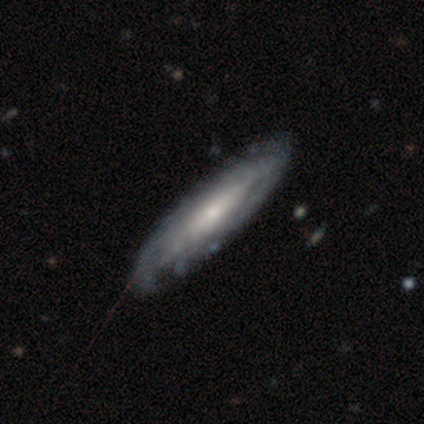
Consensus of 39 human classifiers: smooth_or_featured: featured or disk (p=0.59) [alt: smooth p=0.41]
disk_edge_on: no (p=0.74) [alt: yes p=0.26]
bar: no (p=0.53) [alt: strong p=0.35]
has_spiral_arms: yes (p=0.65) [alt: no p=0.35]
spiral_winding: tight (p=0.73) [alt: medium p=0.27]
spiral_arm_count: can't tell (p=0.91) [alt: 2 p=0.09]
bulge_size: moderate (p=0.41) [alt: small p=0.29]
merging: none (p=0.59) [alt: minor disturbance p=0.05]